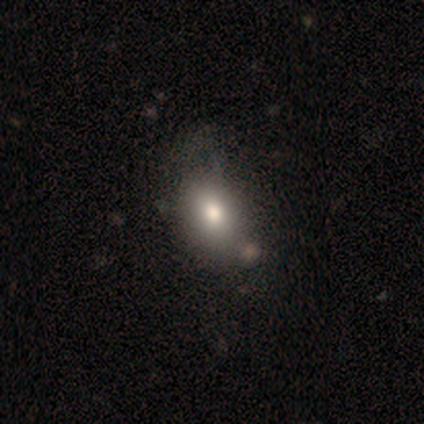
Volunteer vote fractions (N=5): smooth-or-featured: smooth: 80% | featured or disk: 20% | star or artifact: 0%
  how-rounded: in between: 100% | round: 0% | cigar-shaped: 0%
  merging: none: 60% | minor disturbance: 20% | merger: 20% | major disturbance: 0%